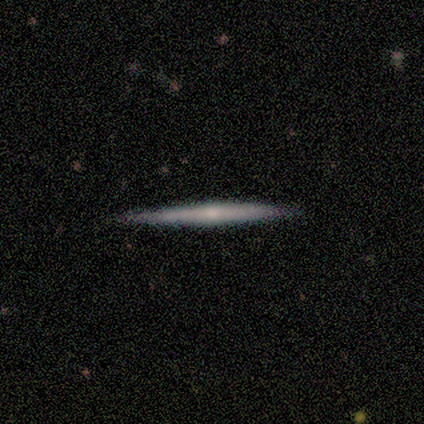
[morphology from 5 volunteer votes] smooth-or-featured: featured or disk: 60% | smooth: 40% | star or artifact: 0%
  disk-edge-on: yes: 100% | no: 0%
    edge-on-bulge: none: 67% | rounded: 33% | boxy: 0%
  merging: none: 100% | minor disturbance: 0% | major disturbance: 0% | merger: 0%